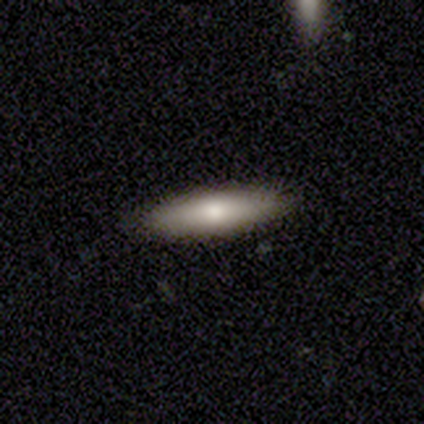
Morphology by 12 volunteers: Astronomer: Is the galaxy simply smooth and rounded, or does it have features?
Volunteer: smooth — 58% (runner-up: featured or disk, 42%).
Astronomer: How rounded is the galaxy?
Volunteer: in between — 57% (runner-up: cigar-shaped, 43%).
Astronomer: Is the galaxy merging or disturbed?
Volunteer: none — 92%.